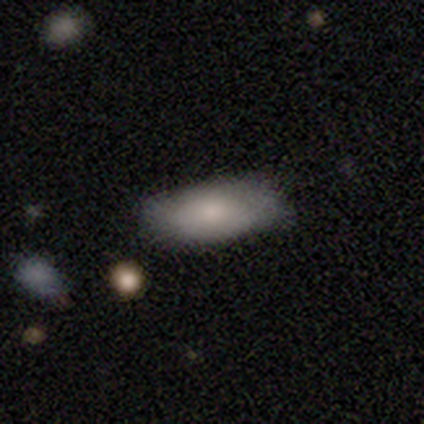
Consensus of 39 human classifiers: Morphology: type=smooth (72%); roundness=in between (79%); merging=none (49%).